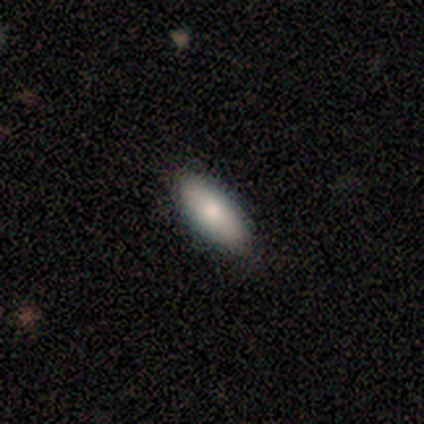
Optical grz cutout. It shows a smooth galaxy with no disk features (80%) that is in between round and cigar-shaped (100%). Merging: none (100%).